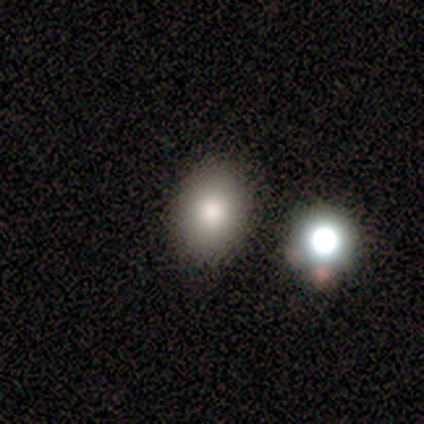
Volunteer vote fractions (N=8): smooth_or_featured: smooth (p=0.88) [alt: featured or disk p=0.12]
how_rounded: round (p=0.57) [alt: in between p=0.43]
merging: none (p=1.00)